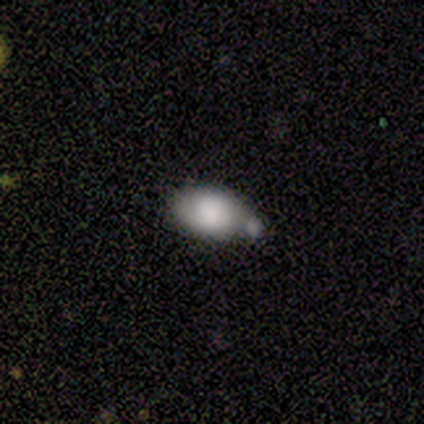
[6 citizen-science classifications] smooth_or_featured: smooth (p=0.83) [alt: featured or disk p=0.17]
how_rounded: in between (p=1.00)
merging: merger (p=0.50) [alt: none p=0.17]